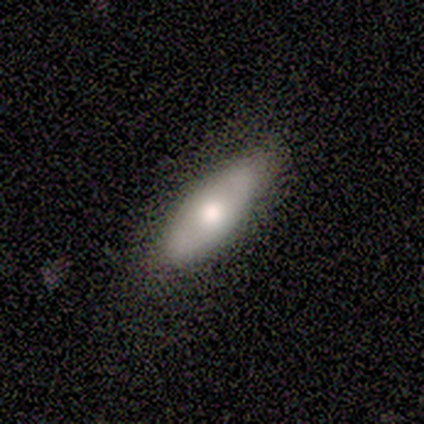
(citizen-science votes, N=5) Smooth or featured?
  - smooth: 60% *
  - featured or disk: 40%
  - star or artifact: 0%
How rounded?
  - in between: 100% *
  - round: 0%
  - cigar-shaped: 0%
Merging?
  - none: 100% *
  - minor disturbance: 0%
  - major disturbance: 0%
  - merger: 0%